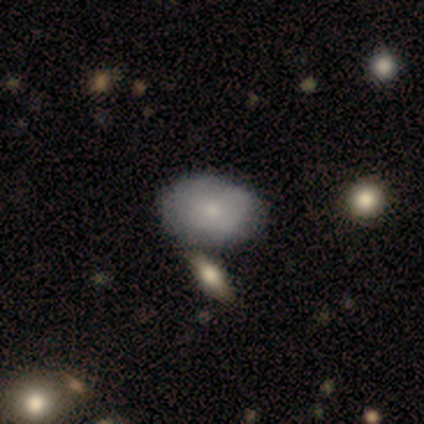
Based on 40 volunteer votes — A smooth galaxy with no disk features (65%) that is in between round and cigar-shaped (81%). Merging: none (50%).